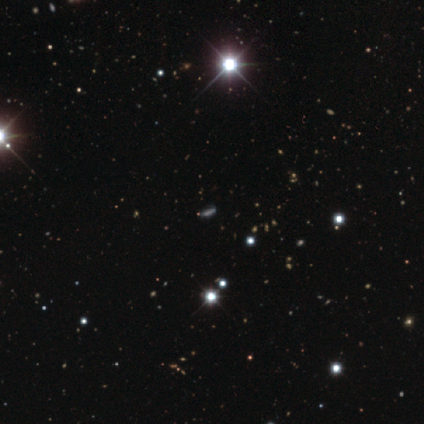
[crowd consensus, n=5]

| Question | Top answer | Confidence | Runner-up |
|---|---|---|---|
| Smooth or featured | star or artifact | 60% | smooth (20%) |